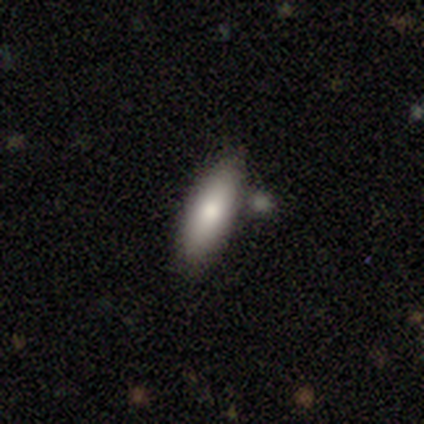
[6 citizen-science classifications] Overall: smooth (83%). How rounded: in between (80%). Merging: none (67%; minor disturbance 33%).